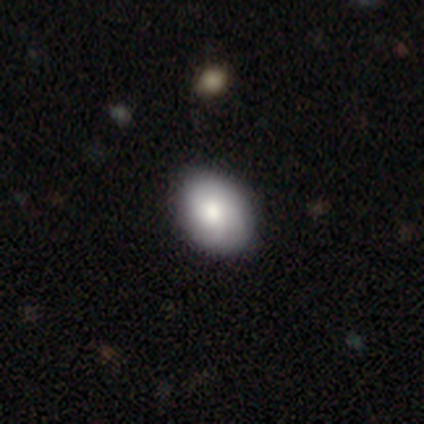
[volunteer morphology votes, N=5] A smooth galaxy with no disk features (60%) that is in between round and cigar-shaped (67%). Merging: none (80%).